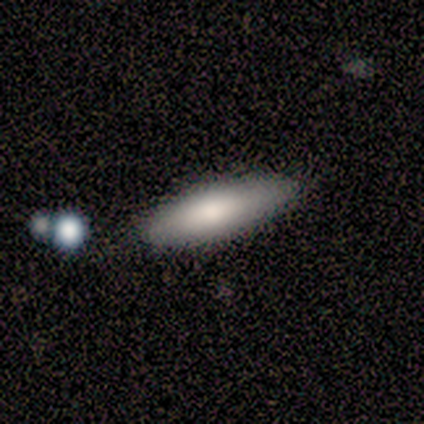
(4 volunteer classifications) smooth_or_featured: smooth (p=1.00)
how_rounded: cigar-shaped (p=1.00)
merging: none (p=1.00)